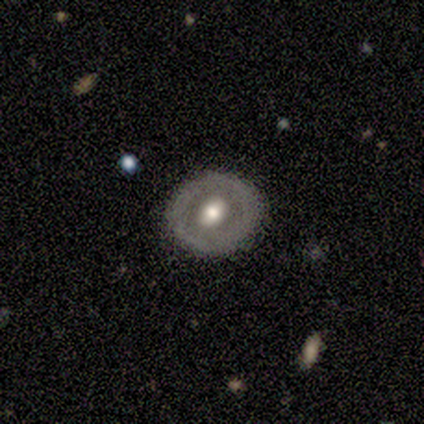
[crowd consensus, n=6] This is clearly a featured or disk galaxy (100%). It is clearly not viewed edge-on (100%). Bar: clearly no (83%). Spiral arm pattern: clearly no (100%). Central bulge: clearly moderate (83%). Merging: clearly none (83%).